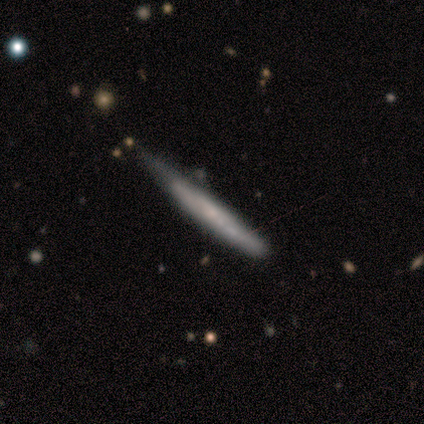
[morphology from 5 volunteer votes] Smooth or featured? featured or disk (60%)
Edge-on disk? yes (100%)
Edge-on bulge? none (100%)
Merging? none (40%, tied with minor disturbance)